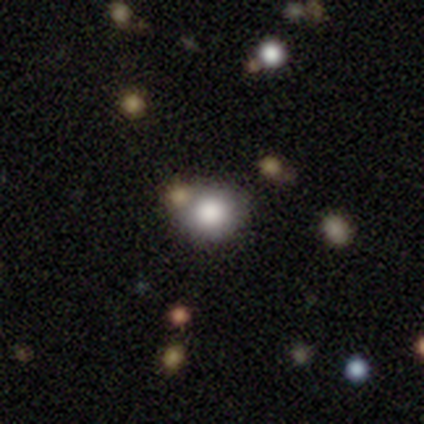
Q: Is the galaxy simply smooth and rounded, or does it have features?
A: smooth — 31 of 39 (79%).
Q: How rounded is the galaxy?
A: round — 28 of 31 (90%).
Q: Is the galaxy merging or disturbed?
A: none — 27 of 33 (82%).